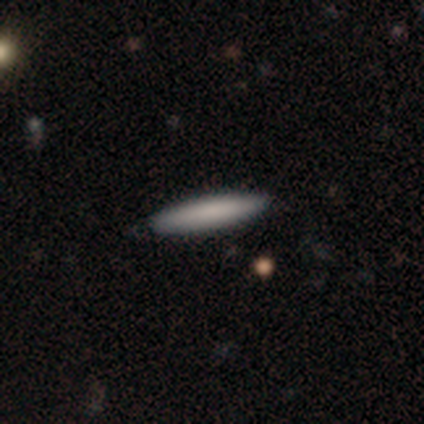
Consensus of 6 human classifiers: Q: Smooth or featured?
A: smooth (67%); runner-up: featured or disk (33%)
Q: How rounded?
A: cigar-shaped (75%); runner-up: round (25%)
Q: Merging?
A: none (67%); runner-up: minor disturbance (17%)